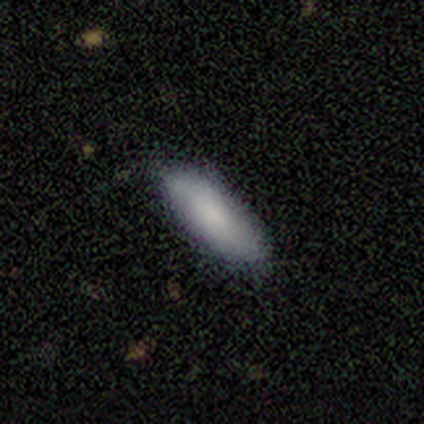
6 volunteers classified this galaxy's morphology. smooth-or-featured: smooth: 83% | featured or disk: 17% | star or artifact: 0%
  how-rounded: in between: 60% | cigar-shaped: 40% | round: 0%
  merging: none: 100% | minor disturbance: 0% | major disturbance: 0% | merger: 0%